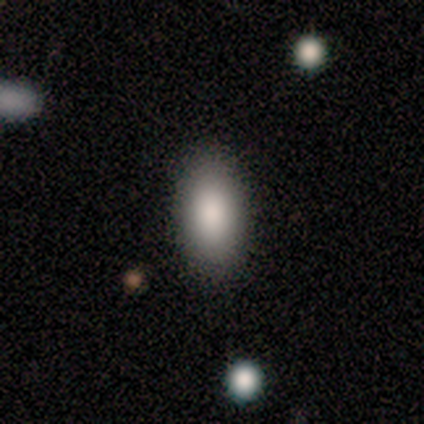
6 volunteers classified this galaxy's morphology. Smooth or featured? smooth (67%)
How rounded? in between (100%)
Merging? none (80%)